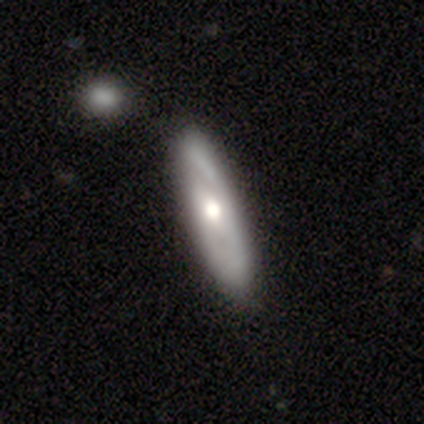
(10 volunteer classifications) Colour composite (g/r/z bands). It shows a featured or disk galaxy (80%) with no bar (100%), 2 (67%) tight (33%, tied with medium and loose) spiral arms (50%, tied with no) and a moderate central bulge (67%). Merging: none (90%).